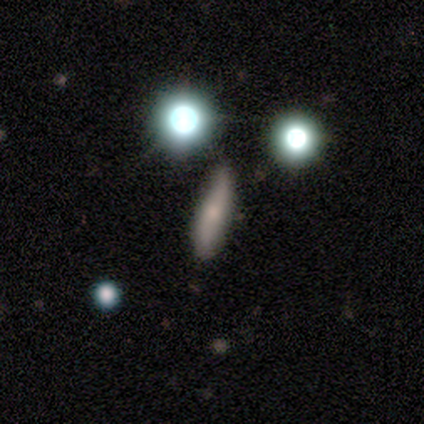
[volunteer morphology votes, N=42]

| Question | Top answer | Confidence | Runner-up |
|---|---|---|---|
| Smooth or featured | smooth | 62% | featured or disk (31%) |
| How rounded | cigar-shaped | 81% | in between (15%) |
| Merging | none | 64% | minor disturbance (31%) |